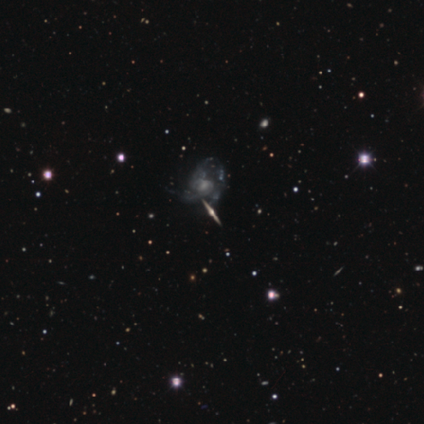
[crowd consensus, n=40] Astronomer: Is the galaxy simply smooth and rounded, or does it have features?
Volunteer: featured or disk — 88%.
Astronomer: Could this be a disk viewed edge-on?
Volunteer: yes — 51% (runner-up: no, 49%).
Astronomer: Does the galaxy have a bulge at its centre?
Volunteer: rounded — 100%.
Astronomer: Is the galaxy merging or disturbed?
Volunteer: none — 53%.